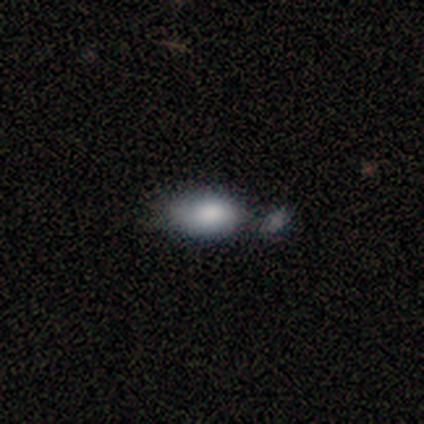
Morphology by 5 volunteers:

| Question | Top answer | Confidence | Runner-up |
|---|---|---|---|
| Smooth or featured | smooth | 80% | star or artifact (20%) |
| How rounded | in between | 100% | — |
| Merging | none | 50% | tied: minor disturbance (50%) |